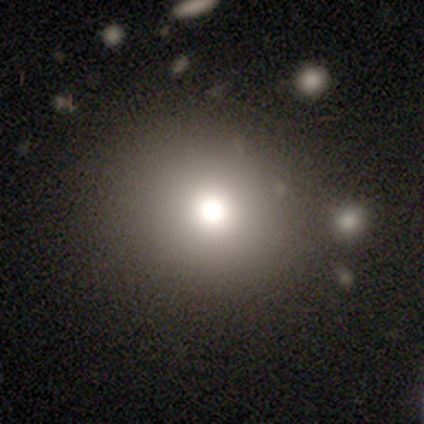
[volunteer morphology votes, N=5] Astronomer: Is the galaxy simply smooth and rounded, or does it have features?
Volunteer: featured or disk — 40%, tied with star or artifact at 40%.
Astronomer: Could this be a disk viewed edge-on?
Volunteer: no — 100%.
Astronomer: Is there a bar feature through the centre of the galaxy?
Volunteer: no — 100%.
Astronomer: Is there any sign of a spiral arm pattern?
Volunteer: no — 100%.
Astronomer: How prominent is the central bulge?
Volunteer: large — 100%.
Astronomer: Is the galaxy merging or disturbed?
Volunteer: none — 67%.